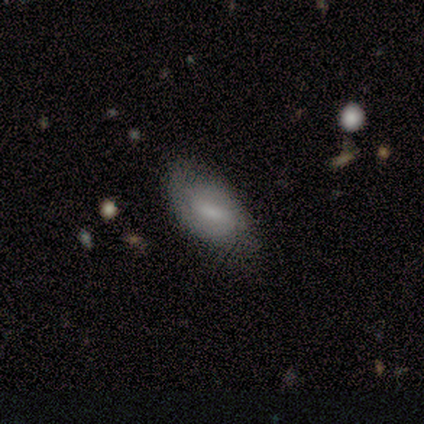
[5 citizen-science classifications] Morphology: type=featured or disk (80%); edge-on=no (100%); bar=strong (50%); spiral arms=yes (50%, tied with no); winding=medium (100%); arm count=1 (50%, tied with 2); bulge=none (50%); merging=none (80%).